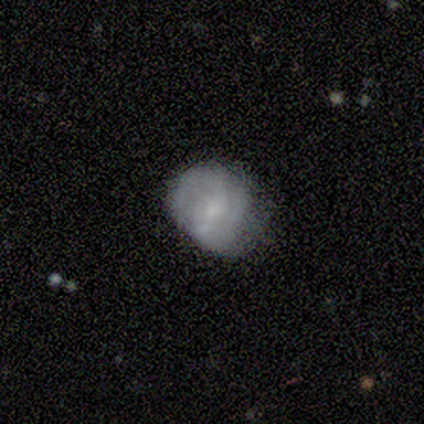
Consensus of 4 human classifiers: A featured or disk galaxy (75%) with a weak bar (67%), 2 (100%) medium (100%) spiral arms (67%) and a small central bulge (67%). Merging: minor disturbance (75%).